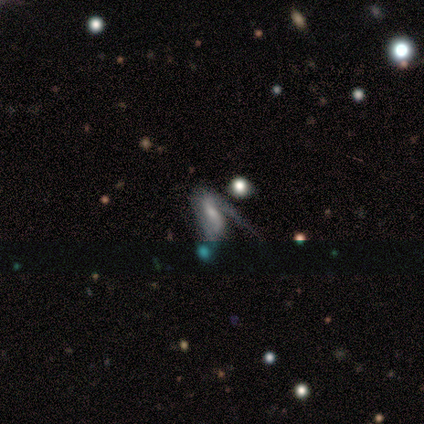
smooth-or-featured: featured or disk: 62% | smooth: 25% | star or artifact: 12%
  disk-edge-on: no: 100% | yes: 0%
    bar: weak: 70% | no: 30% | strong: 0%
    has-spiral-arms: yes: 50% (tied) | no: 50% (tied)
      spiral-winding: loose: 60% | tight: 20% | medium: 20%
      spiral-arm-count: 1: 80% | 2: 20% | 3: 0% | 4: 0% | more than 4: 0% | can't tell: 0%
    bulge-size: small: 60% | none: 30% | moderate: 10% | dominant: 0% | large: 0%
  merging: major disturbance: 36% | none: 21% | minor disturbance: 21% | merger: 21%